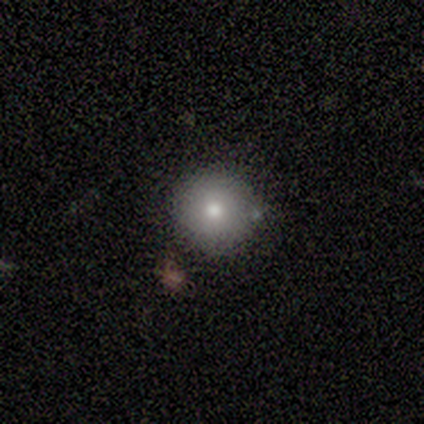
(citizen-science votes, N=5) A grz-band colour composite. It shows a smooth galaxy with no disk features (60%) that is round (100%). Merging: none (67%).